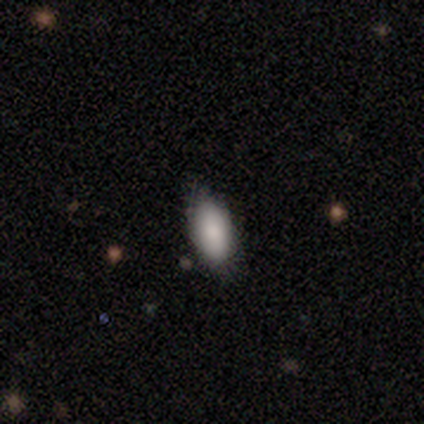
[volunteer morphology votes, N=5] Smooth or featured: smooth — 80% (featured or disk — 20%)
How rounded: in between — 75% (cigar-shaped — 25%)
Merging: none — 80% (minor disturbance — 20%)